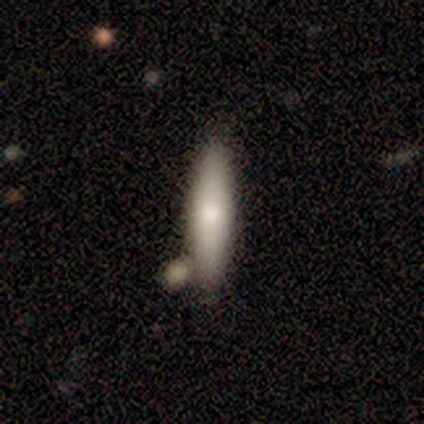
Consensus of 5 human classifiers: Overall: smooth (80%). How rounded: cigar-shaped (75%). Merging: none (40%, tied with minor disturbance).